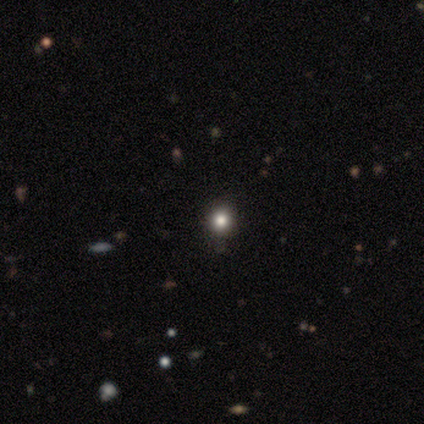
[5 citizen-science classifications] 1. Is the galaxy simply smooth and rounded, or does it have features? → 60% star or artifact, 40% smooth, 0% featured or disk.